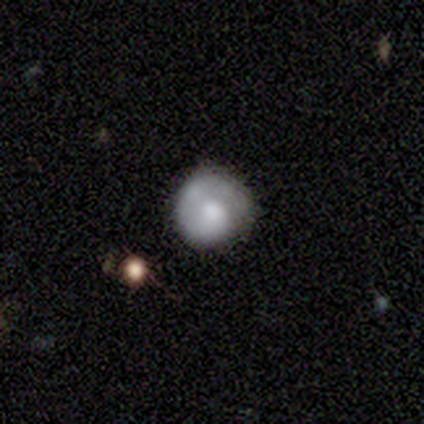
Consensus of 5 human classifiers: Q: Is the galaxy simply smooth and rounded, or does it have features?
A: smooth — 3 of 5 (60%).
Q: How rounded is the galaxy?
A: in between — 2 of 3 (67%).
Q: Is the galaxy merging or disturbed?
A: none — 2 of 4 (50%, tied with minor disturbance).